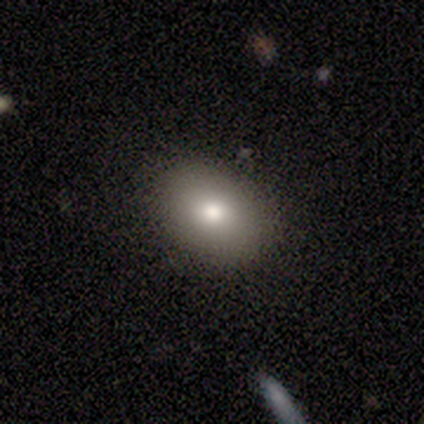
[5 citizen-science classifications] Q: Smooth or featured?
A: smooth (40%); tied with: featured or disk (40%)
Q: How rounded?
A: in between (100%)
Q: Merging?
A: none (75%); runner-up: minor disturbance (25%)